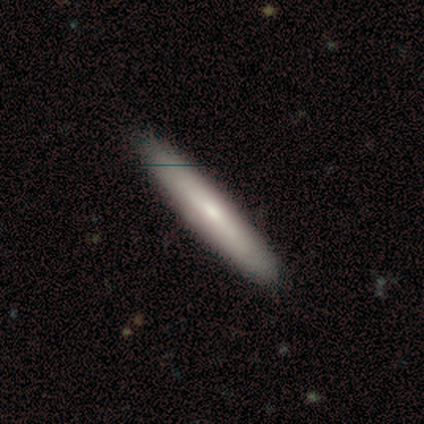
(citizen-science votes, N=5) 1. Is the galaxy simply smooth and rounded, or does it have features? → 40% smooth (tied), 40% featured or disk (tied), 20% star or artifact.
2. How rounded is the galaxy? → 50% in between (tied), 50% cigar-shaped (tied), 0% round.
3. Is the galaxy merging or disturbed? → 100% none, 0% minor disturbance, 0% major disturbance, 0% merger.